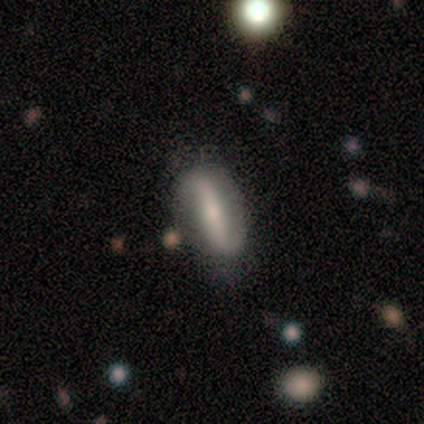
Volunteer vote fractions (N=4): featured or disk 50%, smooth 25%, star or artifact 25%. Down the decision tree: edge-on disk — yes (50%, tied with no); edge-on bulge — none (100%); merging — none (100%).